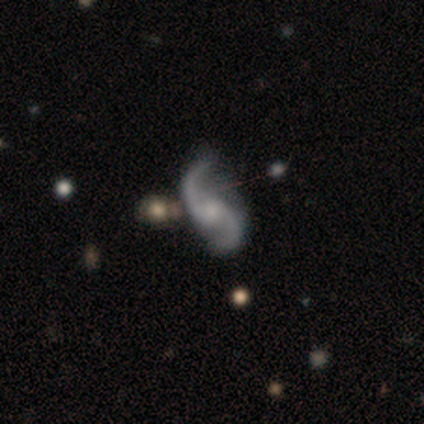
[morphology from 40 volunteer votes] smooth_or_featured: featured or disk (p=0.93) [alt: star or artifact p=0.07]
disk_edge_on: no (p=0.97) [alt: yes p=0.03]
bar: no (p=0.58) [alt: weak p=0.28]
has_spiral_arms: yes (p=1.00)
spiral_winding: loose (p=0.75) [alt: medium p=0.25]
spiral_arm_count: 2 (p=0.92) [alt: can't tell p=0.06]
bulge_size: small (p=0.50) [alt: moderate p=0.22]
merging: none (p=0.65) [alt: minor disturbance p=0.16]